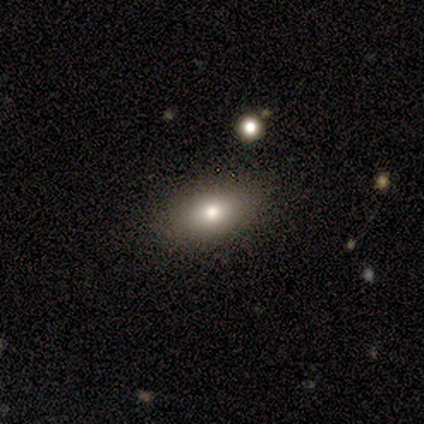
Smooth or featured?
  - smooth: 86% *
  - star or artifact: 14%
  - featured or disk: 0%
How rounded?
  - in between: 100% *
  - round: 0%
  - cigar-shaped: 0%
Merging?
  - none: 100% *
  - minor disturbance: 0%
  - major disturbance: 0%
  - merger: 0%